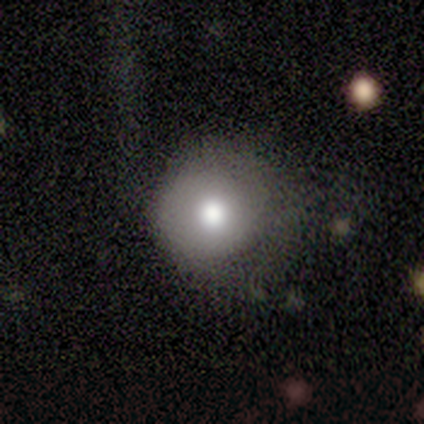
This appears to be a smooth galaxy with no disk features (50%) that is round (100%). Merging: none (33%, tied with minor disturbance and major disturbance).